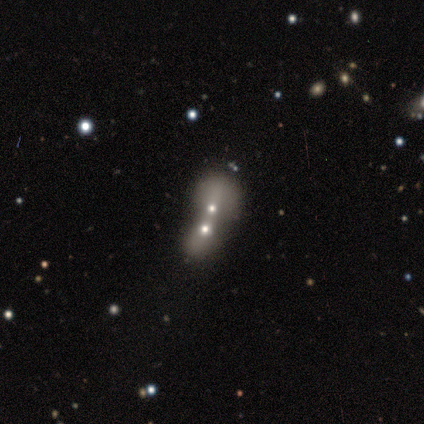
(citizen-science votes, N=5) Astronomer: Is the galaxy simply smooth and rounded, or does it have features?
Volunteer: featured or disk — 80%.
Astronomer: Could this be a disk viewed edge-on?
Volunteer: no — 100%.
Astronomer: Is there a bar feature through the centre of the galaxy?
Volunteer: no — 100%.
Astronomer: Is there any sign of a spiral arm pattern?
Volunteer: no — 100%.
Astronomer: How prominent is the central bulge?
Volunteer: moderate — 50%, tied with small at 50%.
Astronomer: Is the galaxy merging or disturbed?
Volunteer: merger — 100%.